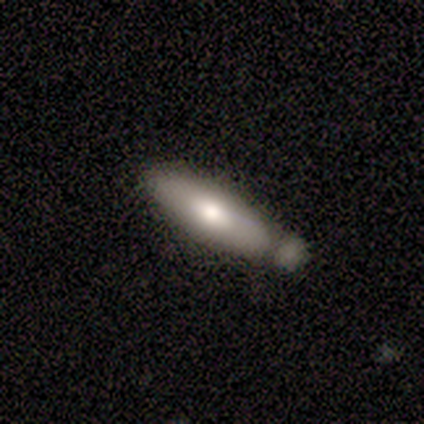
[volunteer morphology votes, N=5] Volunteers were most divided on "smooth or featured": smooth: 60%, featured or disk: 40%, star or artifact: 0%. More confident: how rounded — in between (67%); merging — merger (60%).